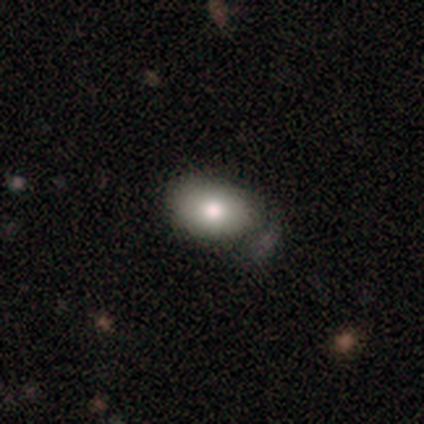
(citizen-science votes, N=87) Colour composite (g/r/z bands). It shows a smooth galaxy with no disk features (77%) that is in between round and cigar-shaped (93%). Merging: none (55%).